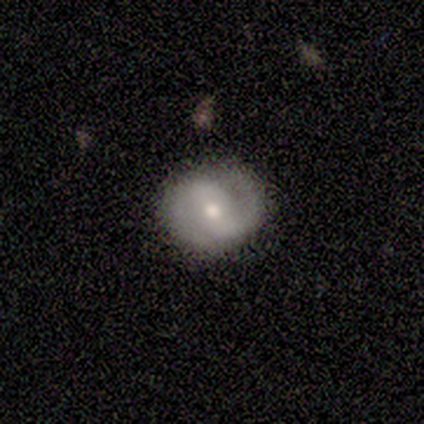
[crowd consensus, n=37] Smooth or featured?
  - featured or disk: 81% *
  - smooth: 16%
  - star or artifact: 3%
Edge-on disk?
  - no: 93% *
  - yes: 7%
Bar?
  - weak: 46% *
  - no: 32%
  - strong: 21%
Spiral arms?
  - yes: 93% *
  - no: 7%
Spiral winding?
  - tight: 54% *
  - medium: 35%
  - loose: 12%
Spiral arm count?
  - 2: 92% *
  - 1: 4%
  - can't tell: 4%
  - 3: 0%
  - 4: 0%
  - more than 4: 0%
Bulge size?
  - moderate: 71% *
  - small: 29%
  - dominant: 0%
  - large: 0%
  - none: 0%
Merging?
  - none: 92% *
  - minor disturbance: 8%
  - major disturbance: 0%
  - merger: 0%